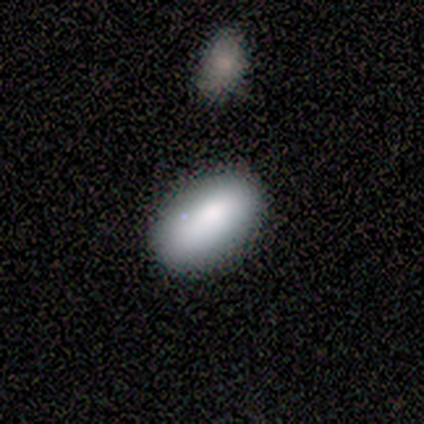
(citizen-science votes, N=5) This is clearly a smooth galaxy (80%). How rounded: clearly in between (100%). Merging: clearly none (100%).